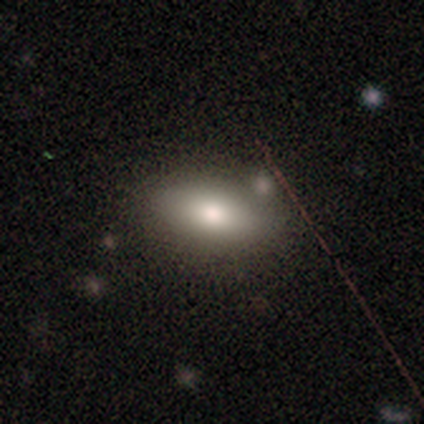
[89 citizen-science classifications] A smooth galaxy with no disk features (72%) that is in between round and cigar-shaped (88%).

Vote fractions:
- Smooth or featured? smooth: 72% / featured or disk: 18% / star or artifact: 10%
- How rounded? in between: 88% / round: 8% / cigar-shaped: 5%
- Merging? none: 72% / minor disturbance: 19% / major disturbance: 5% / merger: 4%